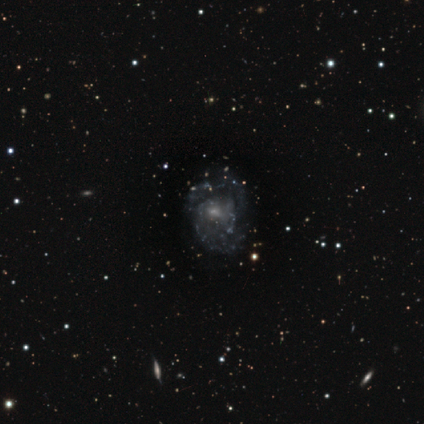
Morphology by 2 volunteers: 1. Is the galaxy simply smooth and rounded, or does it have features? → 100% featured or disk, 0% smooth, 0% star or artifact.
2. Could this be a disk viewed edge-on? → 100% no, 0% yes.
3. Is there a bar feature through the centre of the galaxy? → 100% no, 0% strong, 0% weak.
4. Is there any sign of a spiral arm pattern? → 100% yes, 0% no.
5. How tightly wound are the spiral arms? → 100% medium, 0% tight, 0% loose.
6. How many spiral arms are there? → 50% 2 (tied), 50% can't tell (tied), 0% 1, 0% 3, 0% 4, 0% more than 4.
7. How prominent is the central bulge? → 50% moderate (tied), 50% small (tied), 0% dominant, 0% large, 0% none.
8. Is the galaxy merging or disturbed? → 50% none (tied), 50% minor disturbance (tied), 0% major disturbance, 0% merger.